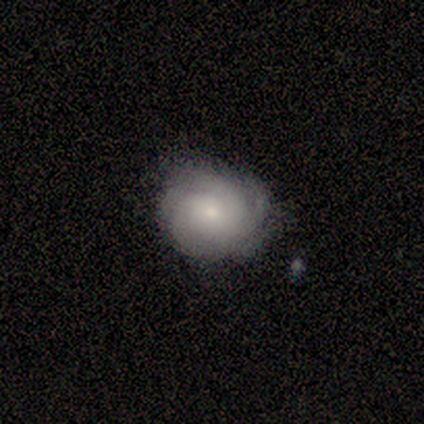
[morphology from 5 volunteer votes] Smooth or featured? 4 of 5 (80%) said featured or disk. Edge-on disk? 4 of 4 (100%) said no. Bar? 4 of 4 (100%) said no. Spiral arms? 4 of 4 (100%) said yes. Spiral winding? 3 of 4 (75%) said tight. Spiral arm count? 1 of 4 (25%, tied with 3, more than 4 and can't tell) said 2. Bulge size? 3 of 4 (75%) said small. Merging? 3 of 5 (60%) said none.